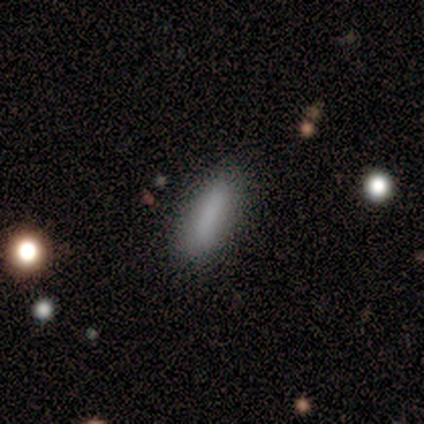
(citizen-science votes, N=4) Overall: smooth (75%). How rounded: cigar-shaped (67%; in between 33%). Merging: none (50%; minor disturbance 25%).